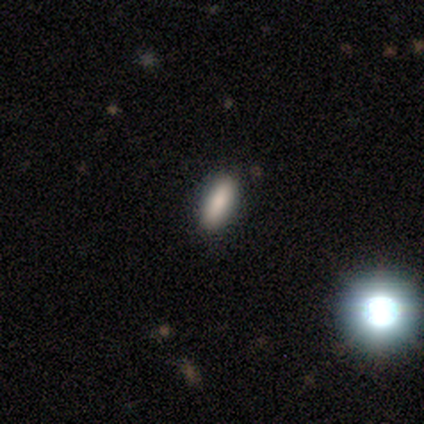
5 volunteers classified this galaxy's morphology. Volunteers were most divided on "smooth or featured": smooth: 80%, star or artifact: 20%, featured or disk: 0%. More confident: how rounded — in between (100%); merging — none (100%).